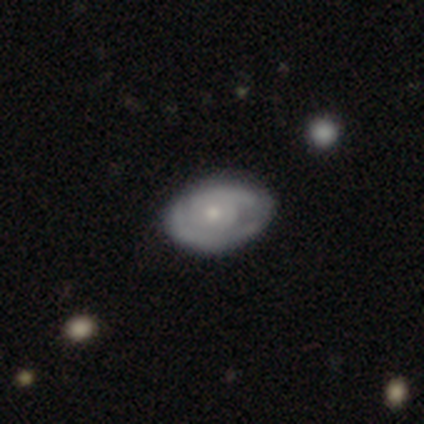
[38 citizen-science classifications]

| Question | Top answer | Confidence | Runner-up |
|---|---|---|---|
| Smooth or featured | featured or disk | 79% | smooth (18%) |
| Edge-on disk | no | 100% | — |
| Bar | no | 97% | strong (3%) |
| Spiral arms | yes | 77% | no (23%) |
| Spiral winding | tight | 70% | medium (22%) |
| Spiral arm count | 2 | 52% | can't tell (39%) |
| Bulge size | moderate | 47% | small (43%) |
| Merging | none | 51% | minor disturbance (16%) |